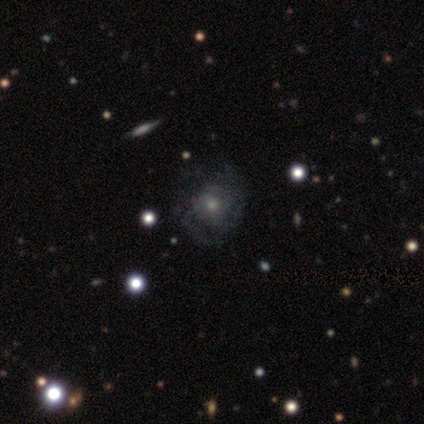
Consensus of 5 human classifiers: This appears to be a featured or disk galaxy (100%) with no bar (100%), no spiral arms (60%) and a moderate central bulge (40%, tied with small). Merging: none (60%).